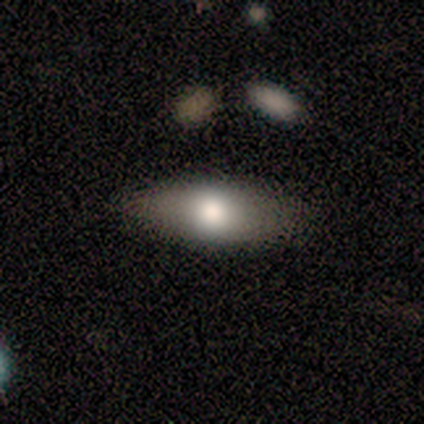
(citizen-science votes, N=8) Smooth or featured: smooth — 75% (featured or disk — 12%)
How rounded: in between — 83% (cigar-shaped — 17%)
Merging: none — 71% (minor disturbance — 29%)